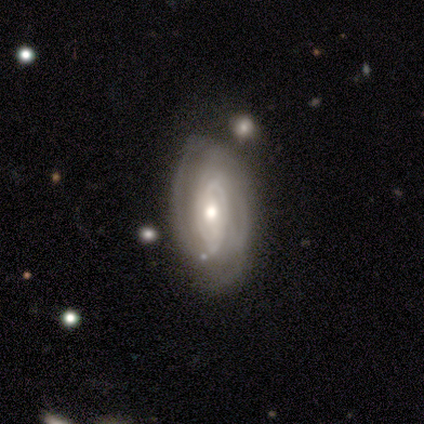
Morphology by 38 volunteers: Q: Smooth or featured?
A: featured or disk (79%); runner-up: smooth (21%)
Q: Edge-on disk?
A: no (97%); runner-up: yes (3%)
Q: Bar?
A: no (59%); runner-up: weak (38%)
Q: Spiral arms?
A: yes (90%); runner-up: no (10%)
Q: Spiral winding?
A: tight (81%); runner-up: medium (12%)
Q: Spiral arm count?
A: can't tell (54%); runner-up: 2 (31%)
Q: Bulge size?
A: moderate (62%); runner-up: small (24%)
Q: Merging?
A: none (63%); runner-up: minor disturbance (21%)